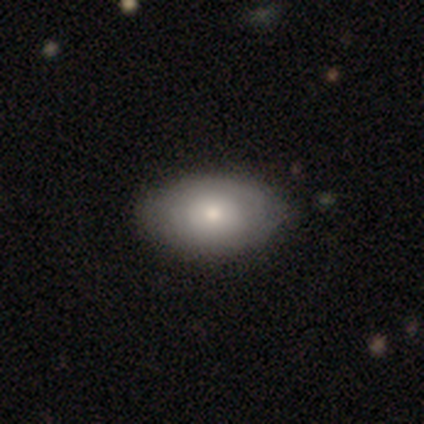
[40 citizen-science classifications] This appears to be a smooth galaxy with no disk features (57%) that is in between round and cigar-shaped (100%). Merging: none (68%).